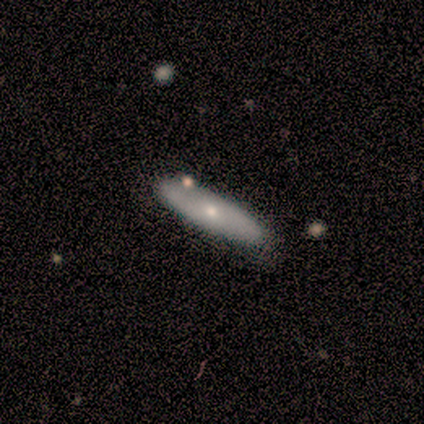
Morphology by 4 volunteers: Overall: smooth (75%). How rounded: in between (100%). Merging: none (100%).